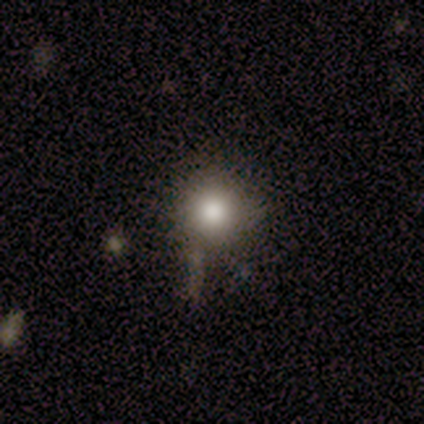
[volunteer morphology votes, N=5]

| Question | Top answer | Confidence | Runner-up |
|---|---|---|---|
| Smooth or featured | smooth | 60% | star or artifact (40%) |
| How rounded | round | 100% | — |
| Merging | minor disturbance | 67% | none (33%) |